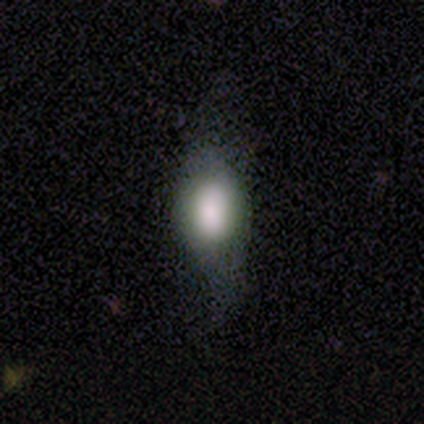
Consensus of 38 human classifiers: A smooth galaxy with no disk features (71%) that is in between round and cigar-shaped (85%).

Vote fractions:
- Smooth or featured? smooth: 71% / featured or disk: 18% / star or artifact: 11%
- How rounded? in between: 85% / round: 15% / cigar-shaped: 0%
- Merging? none: 50% / major disturbance: 29% / minor disturbance: 21% / merger: 0%